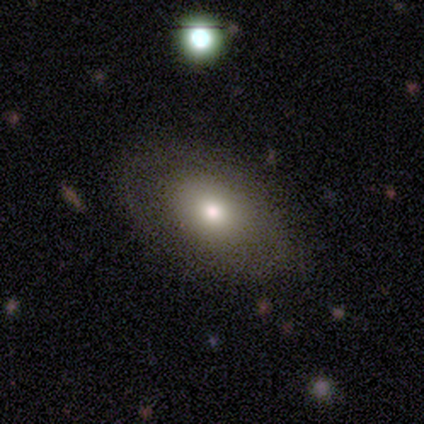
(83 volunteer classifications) Smooth or featured: smooth — 67% (featured or disk — 27%)
How rounded: in between — 89% (round — 9%)
Merging: none — 79% (minor disturbance — 13%)